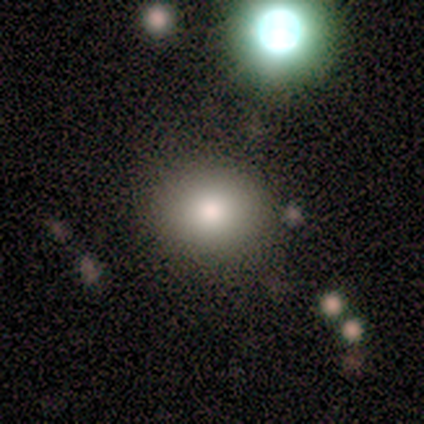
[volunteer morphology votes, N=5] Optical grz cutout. It shows a smooth galaxy with no disk features (80%) that is round (100%). Merging: none (75%).